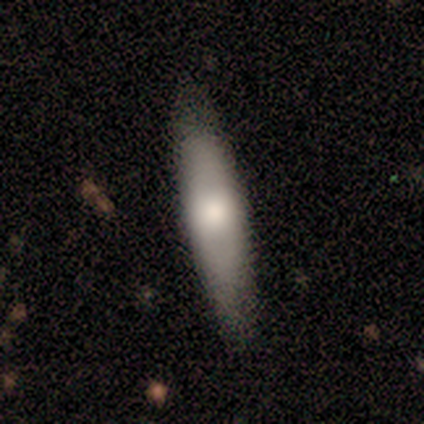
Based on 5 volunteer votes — smooth-or-featured: featured or disk: 80% | smooth: 20% | star or artifact: 0%
  disk-edge-on: yes: 50% (tied) | no: 50% (tied)
    edge-on-bulge: none: 50% (tied) | rounded: 50% (tied) | boxy: 0%
  merging: none: 80% | minor disturbance: 20% | major disturbance: 0% | merger: 0%